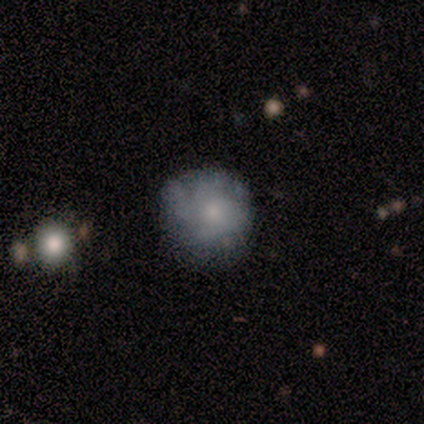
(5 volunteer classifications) Q: Smooth or featured?
A: smooth (60%); runner-up: featured or disk (20%)
Q: How rounded?
A: round (100%)
Q: Merging?
A: none (50%); tied with: minor disturbance (50%)